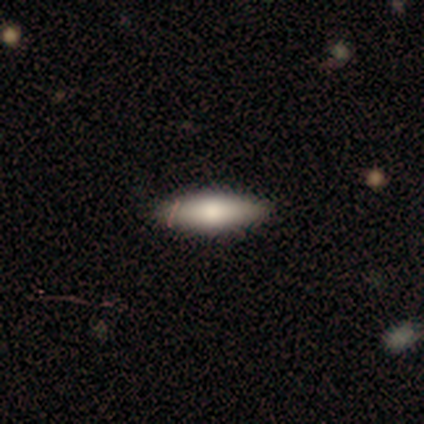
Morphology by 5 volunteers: smooth_or_featured: smooth (p=0.80) [alt: featured or disk p=0.20]
how_rounded: in between (p=0.50) [tied with: cigar-shaped p=0.50]
merging: none (p=1.00)